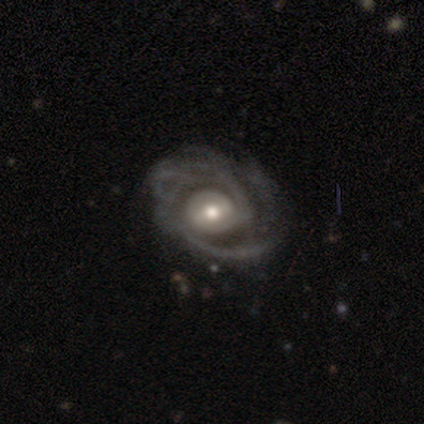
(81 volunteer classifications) smooth-or-featured: featured or disk: 93% | smooth: 4% | star or artifact: 4%
  disk-edge-on: no: 100% | yes: 0%
    bar: weak: 48% | no: 39% | strong: 13%
    has-spiral-arms: yes: 91% | no: 9%
      spiral-winding: tight: 46% | medium: 40% | loose: 15%
      spiral-arm-count: 2: 50% | can't tell: 40% | more than 4: 4% | 3: 3% | 1: 1% | 4: 1%
    bulge-size: moderate: 63% | large: 17% | small: 17% | dominant: 3% | none: 0%
  merging: none: 31% | minor disturbance: 14% | major disturbance: 9% | merger: 0%